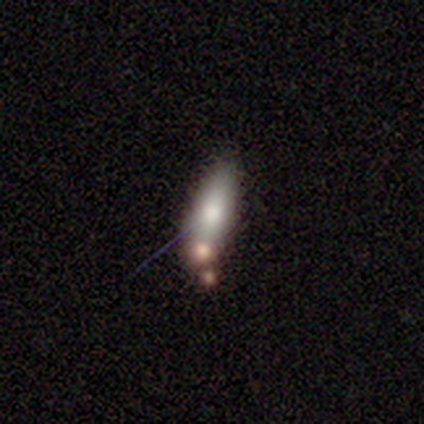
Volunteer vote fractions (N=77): Smooth or featured? 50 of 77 (65%) said smooth. How rounded? 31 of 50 (62%) said in between. Merging? 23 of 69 (33%) said none.